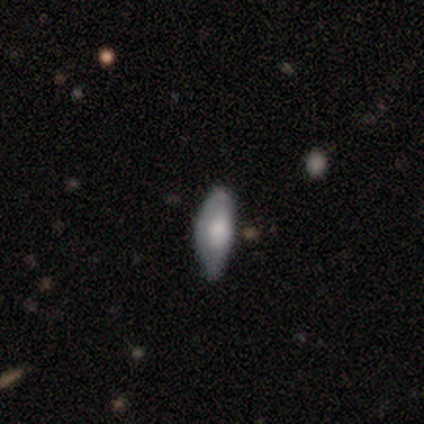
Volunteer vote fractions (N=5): Volunteers were most divided on "merging": none: 60%, minor disturbance: 40%, major disturbance: 0%, merger: 0%. More confident: edge-on bulge — rounded (100%); smooth or featured — featured or disk (80%); edge-on disk — yes (75%).